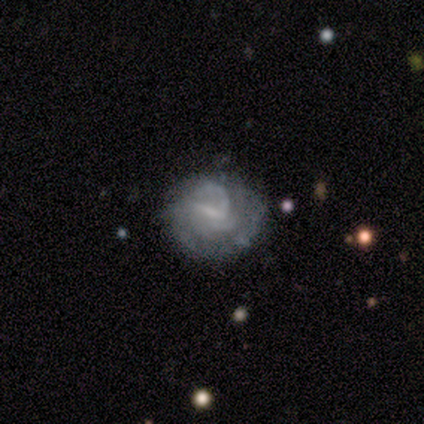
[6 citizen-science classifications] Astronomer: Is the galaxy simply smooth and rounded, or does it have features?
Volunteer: featured or disk — 83%.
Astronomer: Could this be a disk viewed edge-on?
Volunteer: no — 100%.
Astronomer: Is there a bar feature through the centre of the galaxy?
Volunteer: weak — 80%.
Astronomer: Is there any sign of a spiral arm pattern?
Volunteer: yes — 80%.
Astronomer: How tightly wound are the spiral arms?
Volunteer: medium — 50%.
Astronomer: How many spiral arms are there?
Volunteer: can't tell — 75%.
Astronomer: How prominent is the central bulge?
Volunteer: small — 40%, tied with none at 40%.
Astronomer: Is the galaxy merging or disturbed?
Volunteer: none — 60% (runner-up: minor disturbance, 40%).